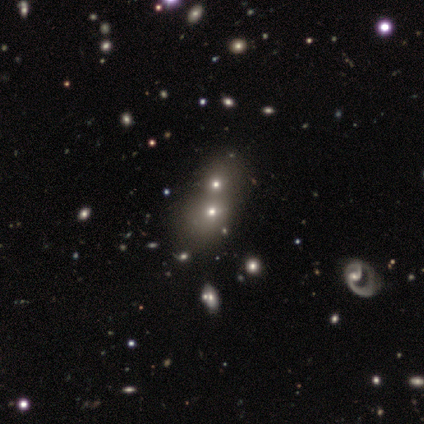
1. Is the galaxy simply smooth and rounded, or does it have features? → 60% smooth, 20% featured or disk, 20% star or artifact.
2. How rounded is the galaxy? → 100% round, 0% in between, 0% cigar-shaped.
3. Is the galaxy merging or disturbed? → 50% none (tied), 50% merger (tied), 0% minor disturbance, 0% major disturbance.